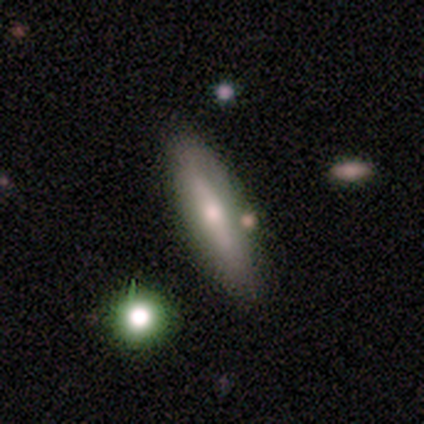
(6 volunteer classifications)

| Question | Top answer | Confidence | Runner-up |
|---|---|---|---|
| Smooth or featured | featured or disk | 83% | smooth (17%) |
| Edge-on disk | yes | 80% | no (20%) |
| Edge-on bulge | rounded | 75% | none (25%) |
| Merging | none | 83% | minor disturbance (17%) |